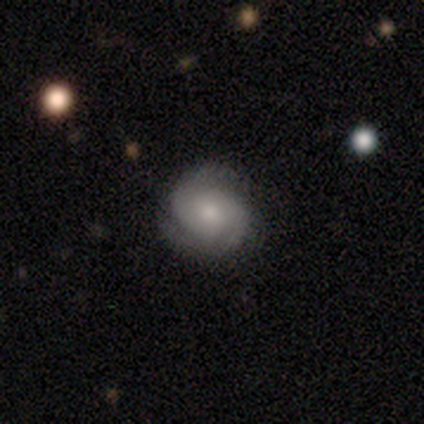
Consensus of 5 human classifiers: This is clearly a featured or disk galaxy (100%). It is clearly not viewed edge-on (100%). Bar: likely no (60%). Spiral arm pattern: clearly yes (80%). Spiral arm count: likely 2 (75%). Spiral winding: likely medium (75%). Central bulge: marginally moderate (40%, tied with small). Merging: clearly none (100%).